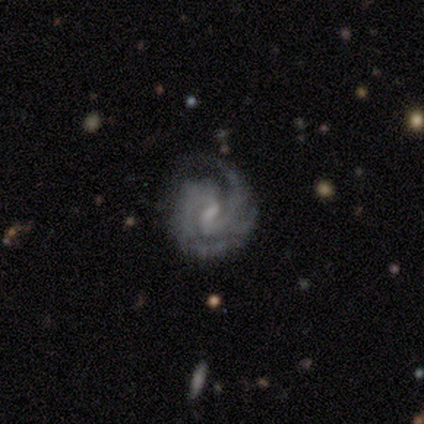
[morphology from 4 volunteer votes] Smooth or featured? 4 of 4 (100%) said featured or disk. Edge-on disk? 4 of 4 (100%) said no. Bar? 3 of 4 (75%) said weak. Spiral arms? 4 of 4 (100%) said yes. Spiral winding? 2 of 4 (50%, tied with medium) said tight. Spiral arm count? 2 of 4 (50%, tied with 3) said 2. Bulge size? 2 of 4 (50%, tied with small) said moderate. Merging? 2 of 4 (50%) said none.